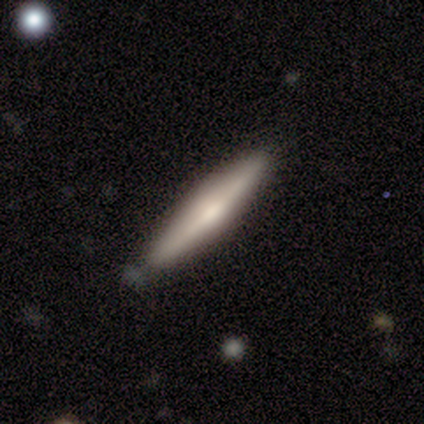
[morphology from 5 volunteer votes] This is likely a featured or disk galaxy (60%). It is clearly viewed edge-on (100%). Edge-on bulge: likely rounded (67%). Merging: clearly none (100%).